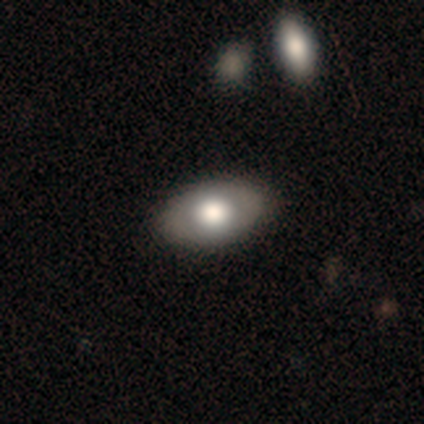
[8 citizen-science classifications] This appears to be a smooth galaxy with no disk features (50%, tied with featured or disk) that is in between round and cigar-shaped (75%). Merging: none (75%).